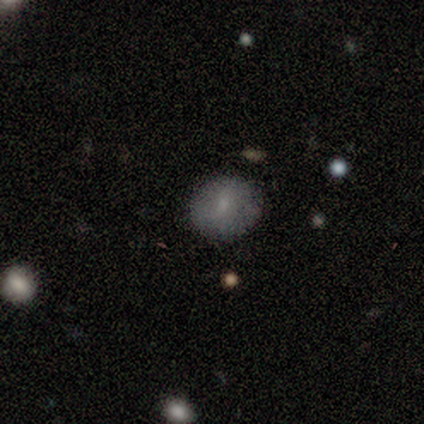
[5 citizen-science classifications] smooth_or_featured: smooth (p=0.60) [alt: featured or disk p=0.20]
how_rounded: round (p=1.00)
merging: none (p=1.00)